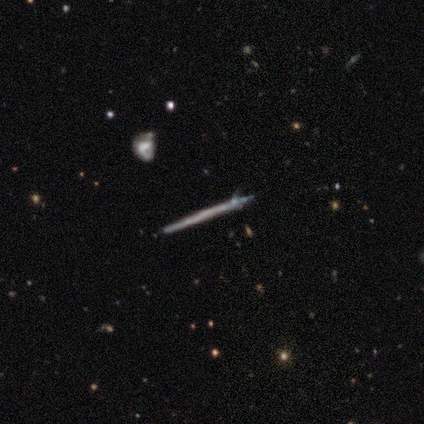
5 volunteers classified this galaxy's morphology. featured or disk 80%, smooth 20%, star or artifact 0%. Down the decision tree: edge-on disk — yes (100%); edge-on bulge — none (100%); merging — none (80%).